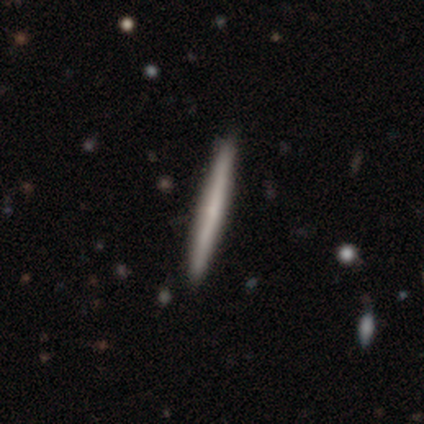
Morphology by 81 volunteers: A smooth galaxy with no disk features (51%) that is cigar-shaped (100%).

Vote fractions:
- Smooth or featured? smooth: 51% / featured or disk: 48% / star or artifact: 1%
- How rounded? cigar-shaped: 100% / round: 0% / in between: 0%
- Merging? none: 48% / minor disturbance: 2% / merger: 1% / major disturbance: 0%